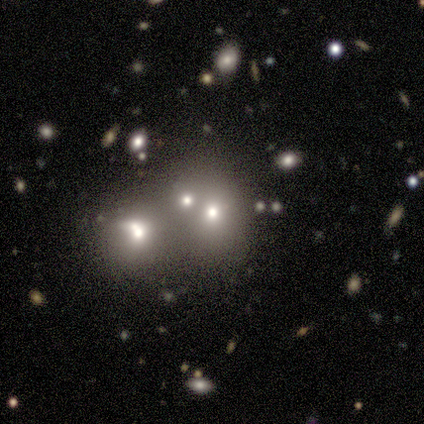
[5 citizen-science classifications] Volunteers were most divided on "smooth or featured" (2-way tie): smooth: 40%, featured or disk: 40%, star or artifact: 20%; "how rounded" (2-way tie): round: 50%, in between: 50%, cigar-shaped: 0%. More confident: merging — merger (50%).